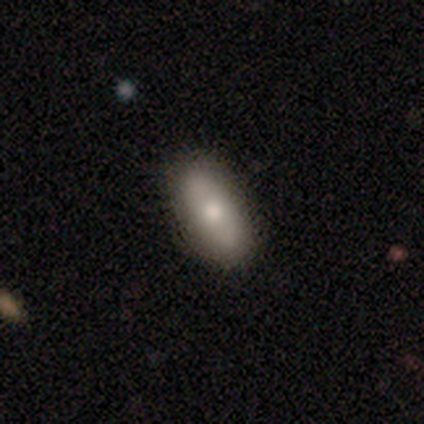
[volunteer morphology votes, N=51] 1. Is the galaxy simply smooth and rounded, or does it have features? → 71% smooth, 25% featured or disk, 4% star or artifact.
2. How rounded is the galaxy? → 83% in between, 8% round, 8% cigar-shaped.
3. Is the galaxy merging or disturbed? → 80% none, 16% minor disturbance, 2% major disturbance, 2% merger.